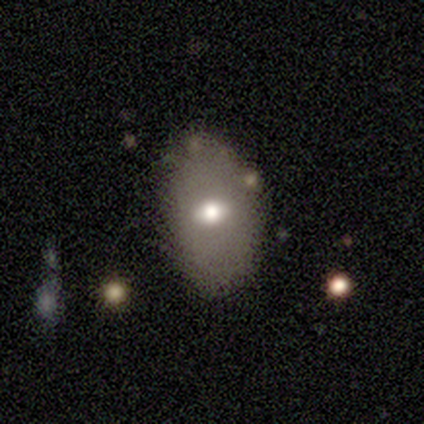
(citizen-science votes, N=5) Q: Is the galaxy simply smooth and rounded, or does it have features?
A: smooth — 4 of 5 (80%).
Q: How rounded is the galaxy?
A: in between — 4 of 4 (100%).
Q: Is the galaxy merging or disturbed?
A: none — 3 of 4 (75%).